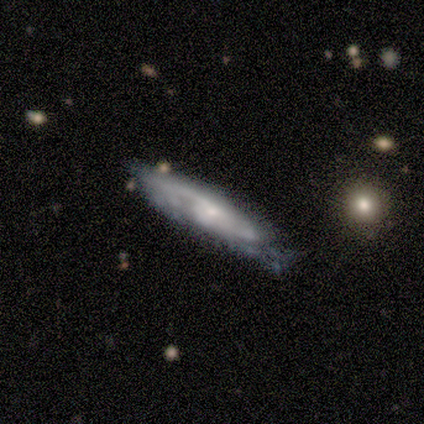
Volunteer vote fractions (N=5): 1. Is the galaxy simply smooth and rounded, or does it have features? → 60% featured or disk, 40% smooth, 0% star or artifact.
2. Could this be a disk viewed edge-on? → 67% no, 33% yes.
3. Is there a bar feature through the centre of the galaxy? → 50% strong (tied), 50% weak (tied), 0% no.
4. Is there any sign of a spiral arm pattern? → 100% yes, 0% no.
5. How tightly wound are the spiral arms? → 50% tight (tied), 50% medium (tied), 0% loose.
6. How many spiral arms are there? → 50% 2 (tied), 50% 3 (tied), 0% 1, 0% 4, 0% more than 4, 0% can't tell.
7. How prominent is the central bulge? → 50% moderate (tied), 50% small (tied), 0% dominant, 0% large, 0% none.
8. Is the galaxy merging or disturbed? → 40% none (tied), 40% major disturbance (tied), 20% minor disturbance, 0% merger.